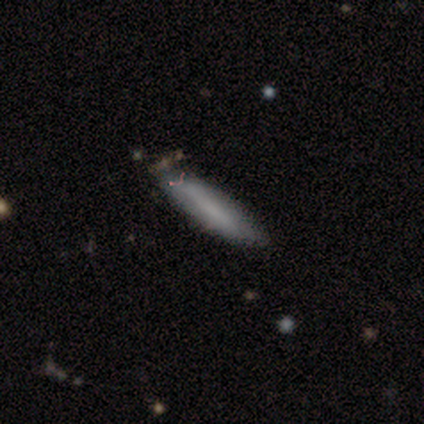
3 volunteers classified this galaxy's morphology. smooth 67%, featured or disk 33%, star or artifact 0%. Down the decision tree: how rounded — in between (50%, tied with cigar-shaped); merging — none (100%).